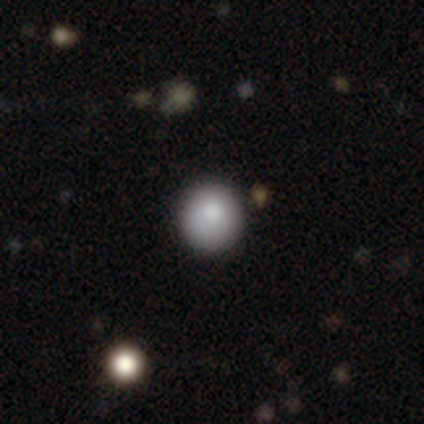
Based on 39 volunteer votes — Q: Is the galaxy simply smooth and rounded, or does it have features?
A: smooth — 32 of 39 (82%).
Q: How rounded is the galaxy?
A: round — 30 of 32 (94%).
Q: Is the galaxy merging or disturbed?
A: none — 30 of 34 (88%).